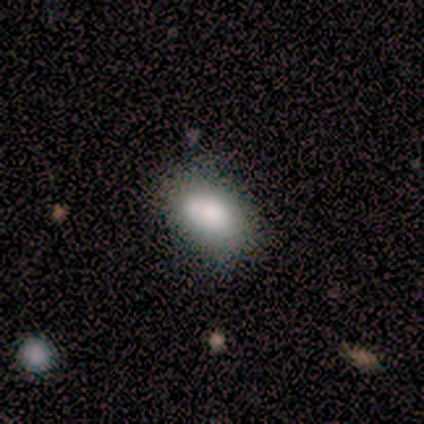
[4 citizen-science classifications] A smooth galaxy with no disk features (50%, tied with featured or disk) that is in between round and cigar-shaped (100%).

Vote fractions:
- Smooth or featured? smooth: 50% (tied) / featured or disk: 50% (tied) / star or artifact: 0%
- How rounded? in between: 100% / round: 0% / cigar-shaped: 0%
- Merging? none: 50% (tied) / merger: 50% (tied) / minor disturbance: 0% / major disturbance: 0%